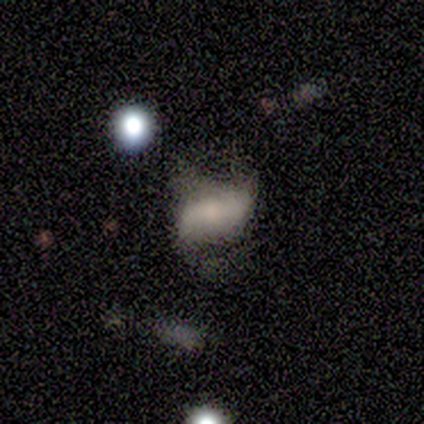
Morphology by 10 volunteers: Overall: featured or disk (70%; smooth 30%). Edge-on disk: no (100%). Bar: strong (43%, tied with no). Spiral arms: yes (86%). Spiral arm count: 2 (100%). Spiral winding: loose (83%). Bulge size: moderate (43%; small 29%). Merging: none (50%; minor disturbance 30%).